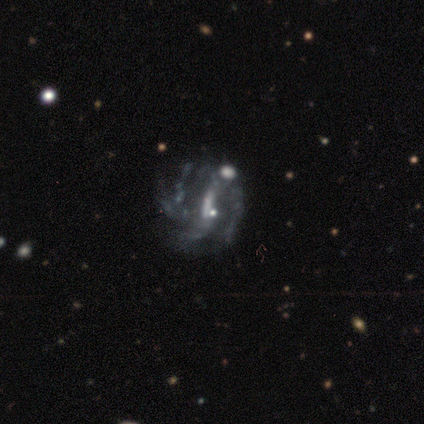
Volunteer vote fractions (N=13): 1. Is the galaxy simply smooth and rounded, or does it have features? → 85% featured or disk, 8% smooth, 8% star or artifact.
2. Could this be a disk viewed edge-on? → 100% no, 0% yes.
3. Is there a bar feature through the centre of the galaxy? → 55% strong, 36% weak, 9% no.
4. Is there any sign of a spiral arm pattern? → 73% yes, 27% no.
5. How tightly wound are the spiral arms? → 62% medium, 25% loose, 12% tight.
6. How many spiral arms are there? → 50% 2, 12% 1, 12% 3, 12% 4, 12% more than 4, 0% can't tell.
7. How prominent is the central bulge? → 45% small (tied), 45% none (tied), 9% moderate, 0% dominant, 0% large.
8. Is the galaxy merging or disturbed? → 50% none, 25% minor disturbance, 25% major disturbance, 0% merger.